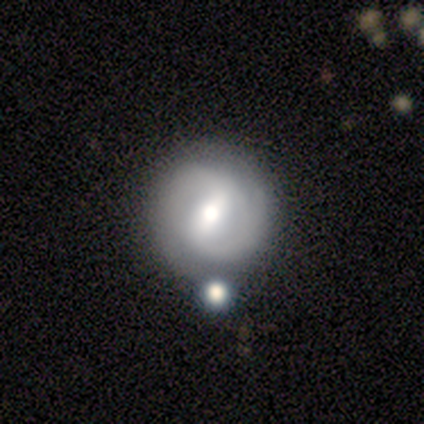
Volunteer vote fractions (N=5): A featured or disk galaxy (80%) with a strong bar (50%, tied with weak), 2 (67%) medium (100%) spiral arms (75%) and a moderate central bulge (50%, tied with small).

Vote fractions:
- Smooth or featured? featured or disk: 80% / smooth: 20% / star or artifact: 0%
- Edge-on disk? no: 100% / yes: 0%
- Bar? strong: 50% (tied) / weak: 50% (tied) / no: 0%
- Spiral arms? yes: 75% / no: 25%
- Spiral winding? medium: 100% / tight: 0% / loose: 0%
- Spiral arm count? 2: 67% / can't tell: 33% / 1: 0% / 3: 0% / 4: 0% / more than 4: 0%
- Bulge size? moderate: 50% (tied) / small: 50% (tied) / dominant: 0% / large: 0% / none: 0%
- Merging? none: 80% / minor disturbance: 20% / major disturbance: 0% / merger: 0%